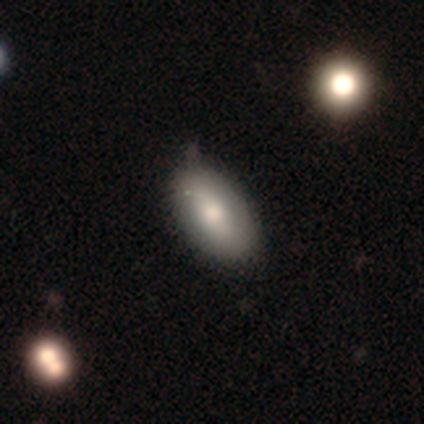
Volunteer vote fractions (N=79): A smooth galaxy with no disk features (80%) that is in between round and cigar-shaped (98%). Merging: none (36%).